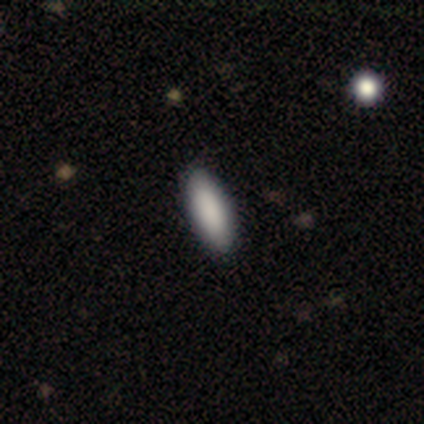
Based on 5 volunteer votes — smooth_or_featured: smooth (p=1.00)
how_rounded: in between (p=0.80) [alt: cigar-shaped p=0.20]
merging: none (p=1.00)